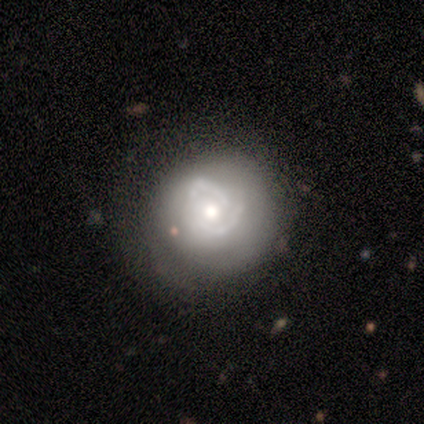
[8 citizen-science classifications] Smooth or featured?
  - featured or disk: 75% *
  - smooth: 25%
  - star or artifact: 0%
Edge-on disk?
  - no: 100% *
  - yes: 0%
Bar?
  - no: 100% *
  - strong: 0%
  - weak: 0%
Spiral arms?
  - no: 83% *
  - yes: 17%
Bulge size?
  - moderate: 67% *
  - large: 17%
  - small: 17%
  - dominant: 0%
  - none: 0%
Merging?
  - minor disturbance: 50% *
  - none: 25%
  - major disturbance: 12%
  - merger: 12%